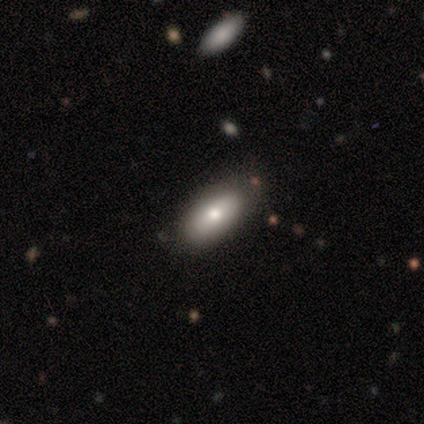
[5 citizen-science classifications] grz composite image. It shows a smooth galaxy with no disk features (100%) that is in between round and cigar-shaped (80%). Merging: none (60%).